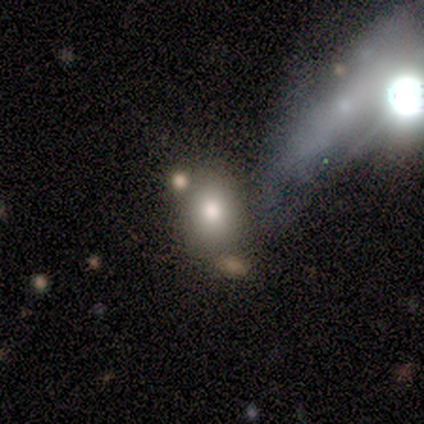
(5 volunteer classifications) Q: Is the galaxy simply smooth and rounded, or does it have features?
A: smooth — 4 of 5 (80%).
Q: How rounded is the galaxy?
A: in between — 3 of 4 (75%).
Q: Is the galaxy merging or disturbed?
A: none — 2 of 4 (50%).